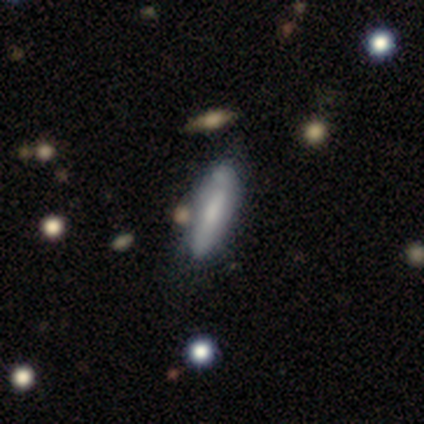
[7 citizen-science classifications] smooth-or-featured: smooth: 71% | featured or disk: 29% | star or artifact: 0%
  how-rounded: in between: 60% | cigar-shaped: 40% | round: 0%
  merging: none: 57% | minor disturbance: 43% | major disturbance: 0% | merger: 0%